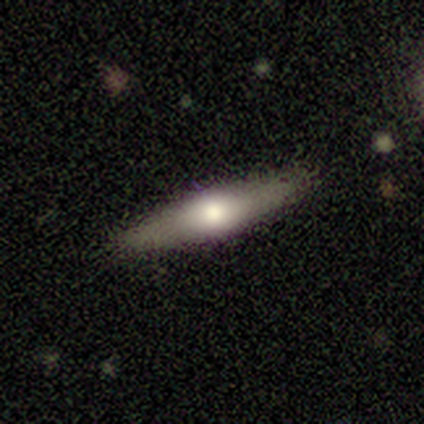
Overall: featured or disk (45%; smooth 42%). Edge-on disk: yes (89%). Edge-on bulge: rounded (81%). Merging: none (91%).